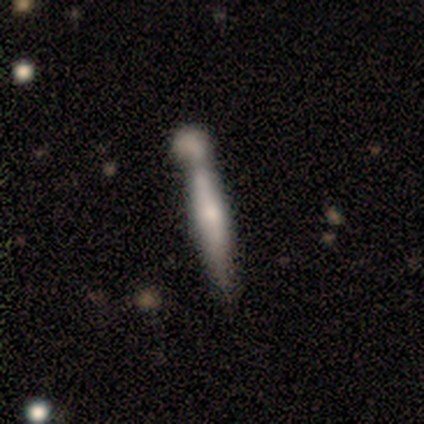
Smooth or featured?
  - featured or disk: 60% *
  - smooth: 40%
  - star or artifact: 0%
Edge-on disk?
  - yes: 67% *
  - no: 33%
Edge-on bulge?
  - rounded: 100% *
  - boxy: 0%
  - none: 0%
Merging?
  - merger: 60% *
  - none: 40%
  - minor disturbance: 0%
  - major disturbance: 0%